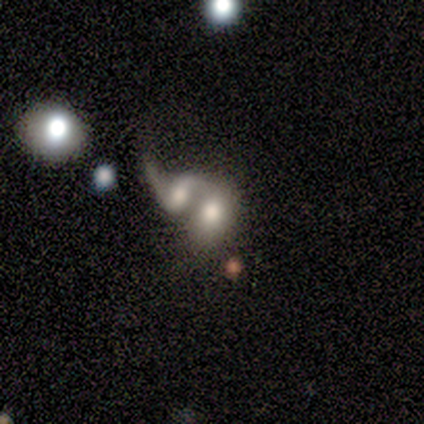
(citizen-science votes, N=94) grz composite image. It shows a smooth galaxy with no disk features (50%) that is in between round and cigar-shaped (79%). Merging: merger (87%).